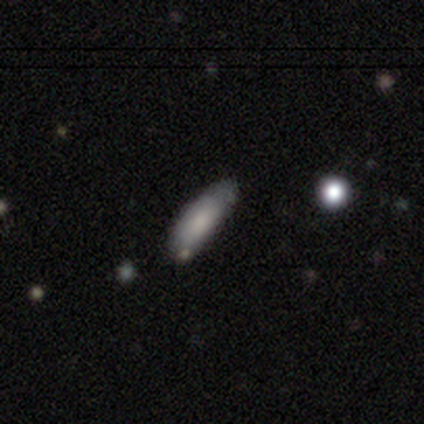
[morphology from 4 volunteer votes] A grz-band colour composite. It shows a smooth galaxy with no disk features (75%) that is cigar-shaped (67%). Merging: none (100%).